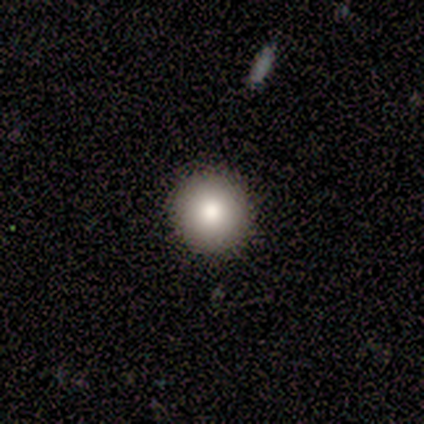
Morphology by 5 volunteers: Q: Smooth or featured?
A: smooth (80%); runner-up: star or artifact (20%)
Q: How rounded?
A: round (100%)
Q: Merging?
A: none (100%)